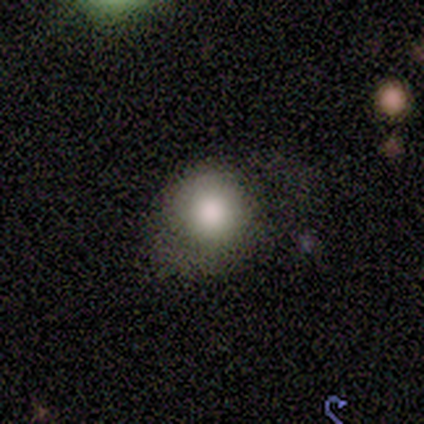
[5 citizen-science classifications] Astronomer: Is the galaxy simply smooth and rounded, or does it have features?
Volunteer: smooth — 100%.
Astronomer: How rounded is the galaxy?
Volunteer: round — 60% (runner-up: in between, 40%).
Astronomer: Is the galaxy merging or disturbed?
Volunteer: none — 60% (runner-up: minor disturbance, 40%).